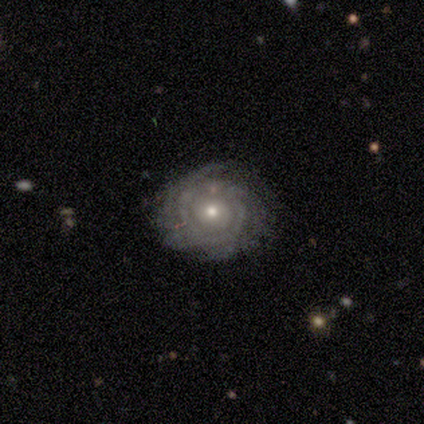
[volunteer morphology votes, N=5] type=featured or disk (80%); edge-on=no (100%); bar=no (75%); spiral arms=yes (100%); winding=tight (50%, tied with loose); arm count=can't tell (50%); bulge=moderate (50%, tied with small); merging=none (40%, tied with minor disturbance).